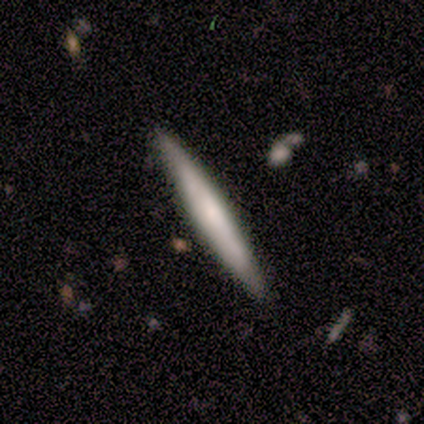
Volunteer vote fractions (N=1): Morphology: type=star or artifact (100%).